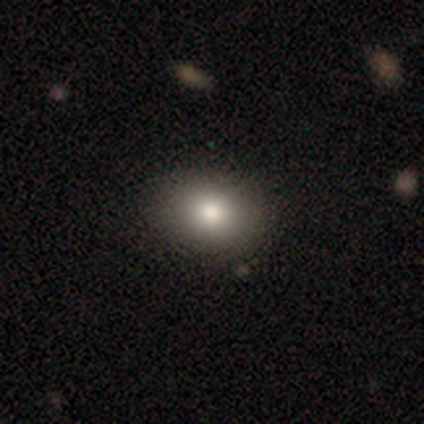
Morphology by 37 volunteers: smooth 86%, star or artifact 8%, featured or disk 5%. Down the decision tree: how rounded — in between (66%); merging — none (91%).